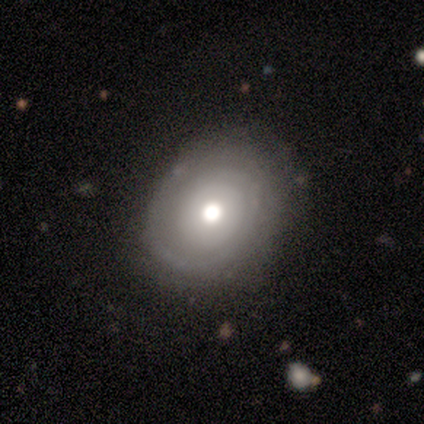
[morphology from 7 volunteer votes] Smooth or featured? smooth (71%)
How rounded? round (60%)
Merging? none (71%)